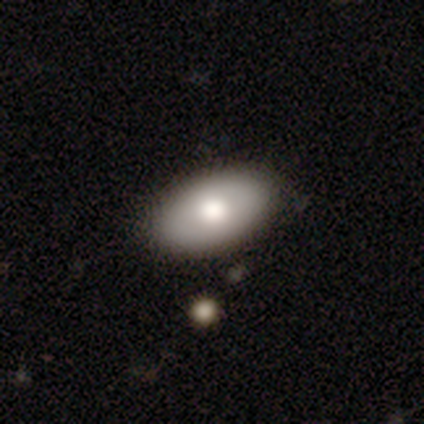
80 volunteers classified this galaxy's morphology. Smooth or featured?
  - smooth: 69% *
  - featured or disk: 24%
  - star or artifact: 8%
How rounded?
  - in between: 96% *
  - round: 4%
  - cigar-shaped: 0%
Merging?
  - none: 55% *
  - minor disturbance: 4%
  - major disturbance: 3%
  - merger: 3%